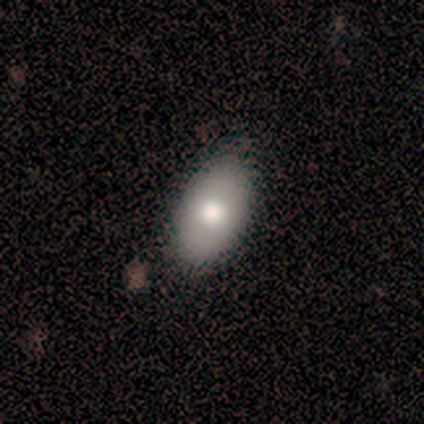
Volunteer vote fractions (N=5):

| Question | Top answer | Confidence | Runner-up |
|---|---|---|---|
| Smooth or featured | smooth | 80% | featured or disk (20%) |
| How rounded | in between | 100% | — |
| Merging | none | 100% | — |